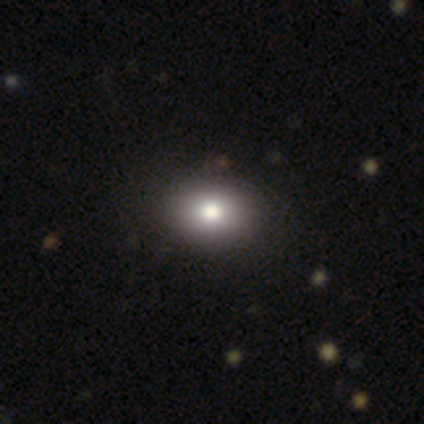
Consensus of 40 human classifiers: Smooth or featured?
  - smooth: 90% *
  - featured or disk: 8%
  - star or artifact: 2%
How rounded?
  - in between: 58% *
  - round: 42%
  - cigar-shaped: 0%
Merging?
  - none: 95% *
  - minor disturbance: 5%
  - major disturbance: 0%
  - merger: 0%